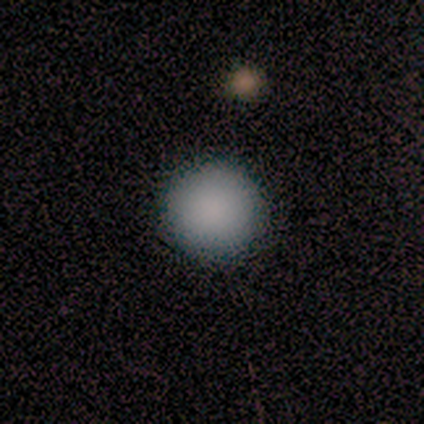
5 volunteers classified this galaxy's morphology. Overall: smooth (80%). How rounded: round (100%). Merging: none (100%).